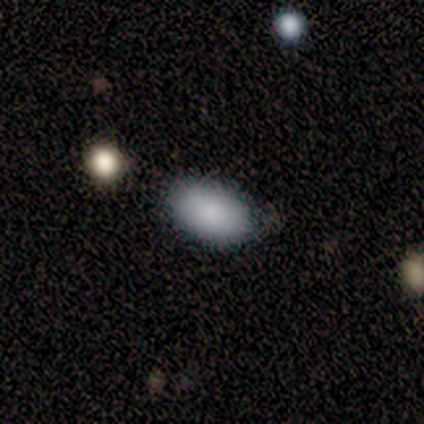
smooth-or-featured: smooth: 100% | featured or disk: 0% | star or artifact: 0%
  how-rounded: in between: 100% | round: 0% | cigar-shaped: 0%
  merging: none: 80% | merger: 20% | minor disturbance: 0% | major disturbance: 0%